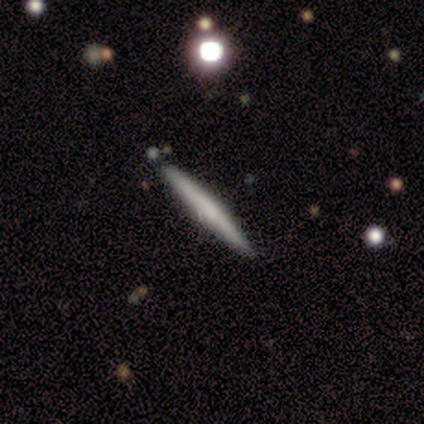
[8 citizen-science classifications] Overall: smooth (75%). How rounded: cigar-shaped (100%). Merging: none (75%).